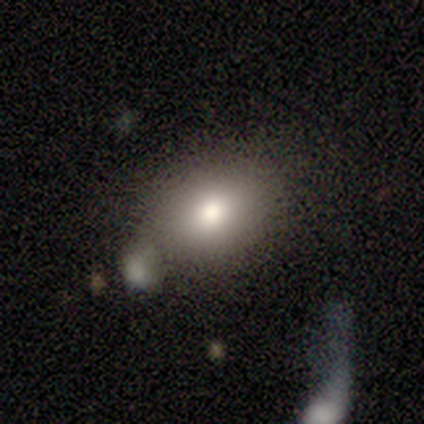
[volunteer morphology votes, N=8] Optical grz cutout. It shows a smooth galaxy with no disk features (62%) that is in between round and cigar-shaped (60%). Merging: none (67%).